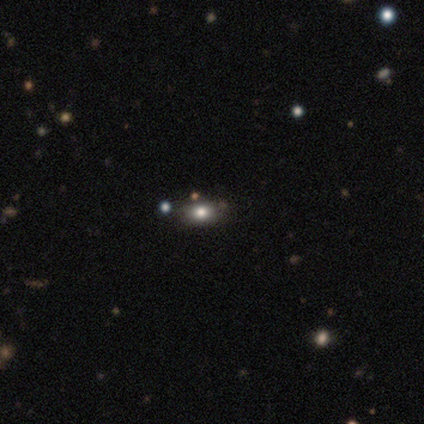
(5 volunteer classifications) Morphology: type=smooth (80%); roundness=round (50%, tied with in between); merging=none (100%).